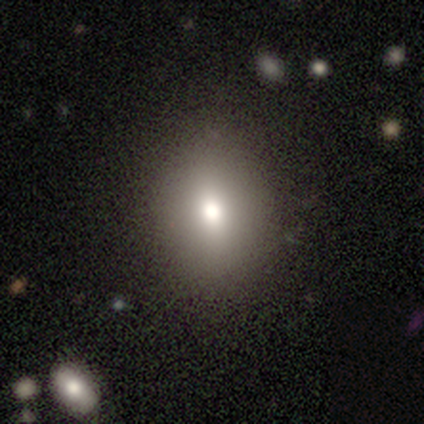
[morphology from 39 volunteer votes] smooth_or_featured: smooth (p=0.79) [alt: featured or disk p=0.18]
how_rounded: in between (p=0.55) [alt: round p=0.42]
merging: none (p=0.55) [alt: minor disturbance p=0.03]